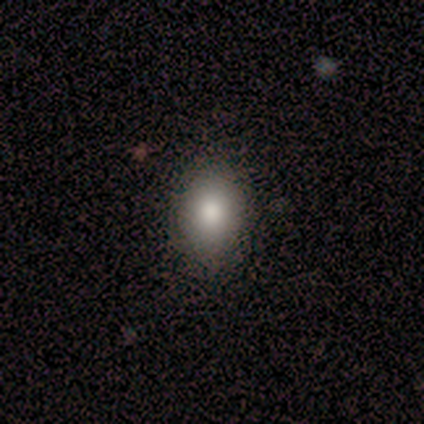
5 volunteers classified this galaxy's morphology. Volunteers were most divided on "how rounded": in between: 60%, round: 40%, cigar-shaped: 0%. More confident: smooth or featured — smooth (100%); merging — none (60%).